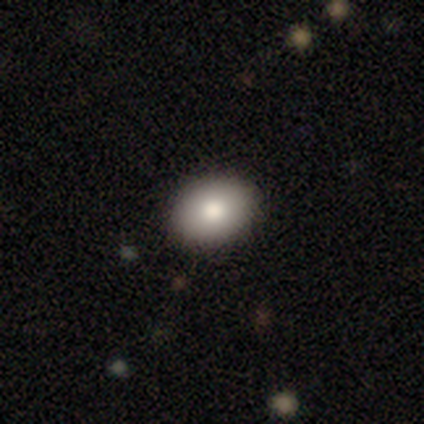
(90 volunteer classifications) A smooth galaxy with no disk features (80%) that is in between round and cigar-shaped (72%).

Vote fractions:
- Smooth or featured? smooth: 80% / featured or disk: 11% / star or artifact: 9%
- How rounded? in between: 72% / round: 28% / cigar-shaped: 0%
- Merging? none: 89% / minor disturbance: 7% / major disturbance: 2% / merger: 1%